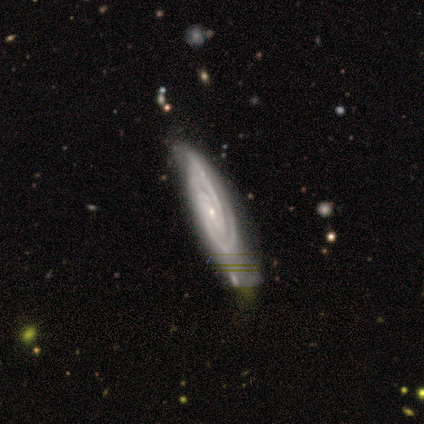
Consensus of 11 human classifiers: This appears to be a featured or disk galaxy (73%) with no bar (67%), 2 (67%) tight (83%) spiral arms (100%) and a small central bulge (83%). Merging: none (55%).